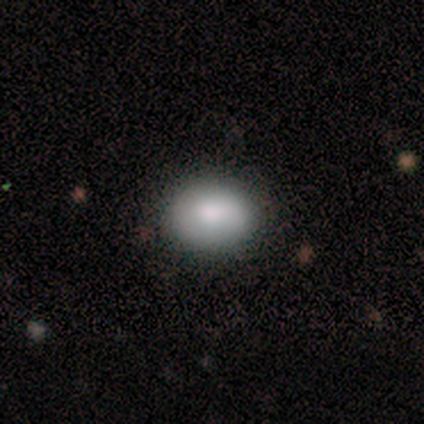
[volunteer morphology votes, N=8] smooth_or_featured: smooth (p=0.88) [alt: featured or disk p=0.12]
how_rounded: round (p=0.57) [alt: in between p=0.43]
merging: none (p=0.88) [alt: minor disturbance p=0.12]